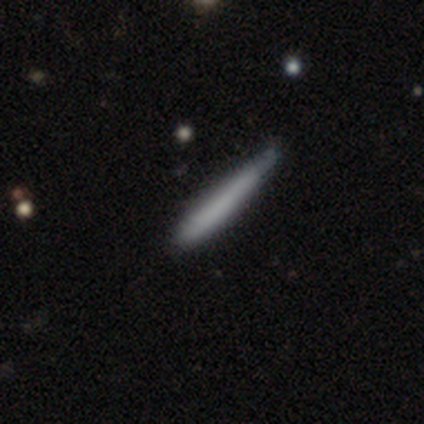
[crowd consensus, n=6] Smooth or featured? 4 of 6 (67%) said smooth. How rounded? 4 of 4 (100%) said cigar-shaped. Merging? 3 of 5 (60%) said none.